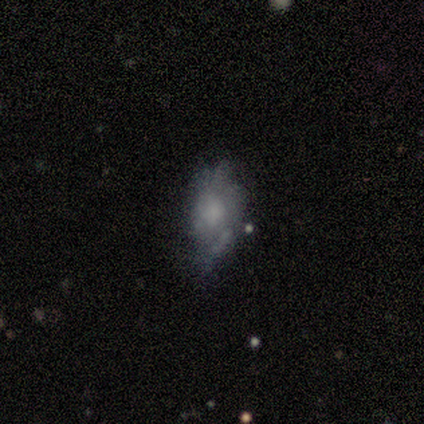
Smooth or featured: smooth — 60% (featured or disk — 40%)
How rounded: in between — 67% (round — 33%)
Merging: minor disturbance — 60% (none — 20%)